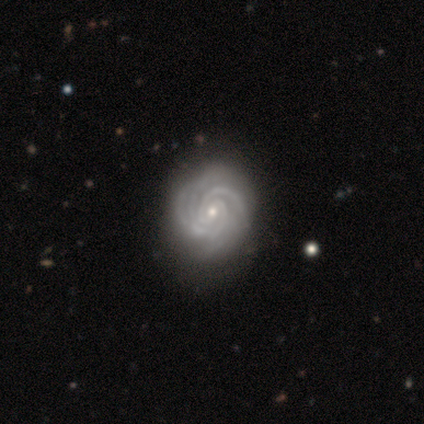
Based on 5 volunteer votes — smooth-or-featured: featured or disk: 80% | smooth: 20% | star or artifact: 0%
  disk-edge-on: no: 100% | yes: 0%
    bar: weak: 50% (tied) | no: 50% (tied) | strong: 0%
    has-spiral-arms: yes: 100% | no: 0%
      spiral-winding: tight: 100% | medium: 0% | loose: 0%
      spiral-arm-count: 3: 50% | 2: 25% | 4: 25% | 1: 0% | more than 4: 0% | can't tell: 0%
    bulge-size: small: 75% | moderate: 25% | dominant: 0% | large: 0% | none: 0%
  merging: none: 80% | minor disturbance: 20% | major disturbance: 0% | merger: 0%